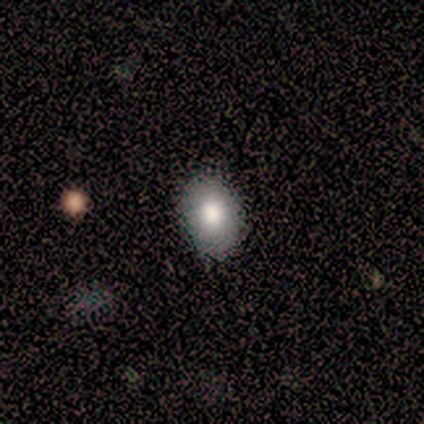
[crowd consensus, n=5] Smooth or featured?
  - smooth: 100% *
  - featured or disk: 0%
  - star or artifact: 0%
How rounded?
  - in between: 80% *
  - round: 20%
  - cigar-shaped: 0%
Merging?
  - none: 80% *
  - minor disturbance: 20%
  - major disturbance: 0%
  - merger: 0%